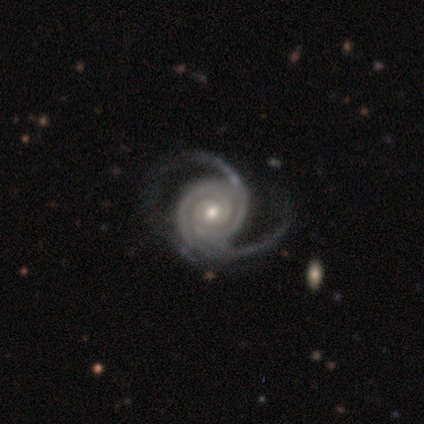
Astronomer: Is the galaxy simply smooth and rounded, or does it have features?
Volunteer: featured or disk — 99%.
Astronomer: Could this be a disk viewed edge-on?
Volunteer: no — 96%.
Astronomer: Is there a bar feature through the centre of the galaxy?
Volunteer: no — 66%.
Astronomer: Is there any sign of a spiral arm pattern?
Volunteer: yes — 100%.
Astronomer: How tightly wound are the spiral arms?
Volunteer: tight — 65%.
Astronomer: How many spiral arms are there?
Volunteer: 2 — 47% (runner-up: 3, 39%).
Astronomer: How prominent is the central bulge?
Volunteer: moderate — 53% (runner-up: small, 44%).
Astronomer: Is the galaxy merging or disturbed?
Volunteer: none — 64%.